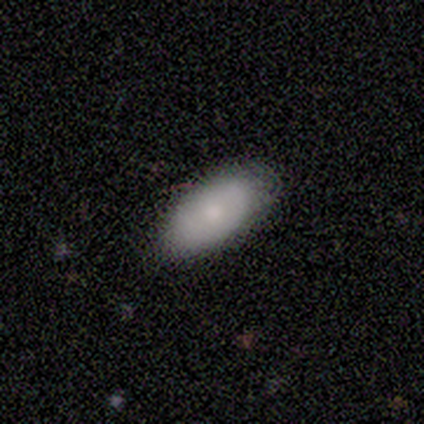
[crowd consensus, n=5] Smooth or featured: smooth — 100%
How rounded: in between — 80% (cigar-shaped — 20%)
Merging: none — 60% (minor disturbance — 40%)